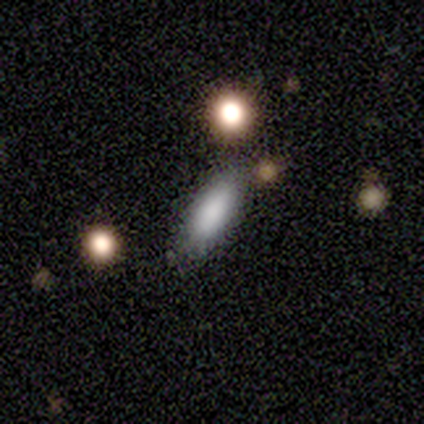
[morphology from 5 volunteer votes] Smooth or featured? 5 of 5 (100%) said smooth. How rounded? 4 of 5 (80%) said in between. Merging? 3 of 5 (60%) said none.